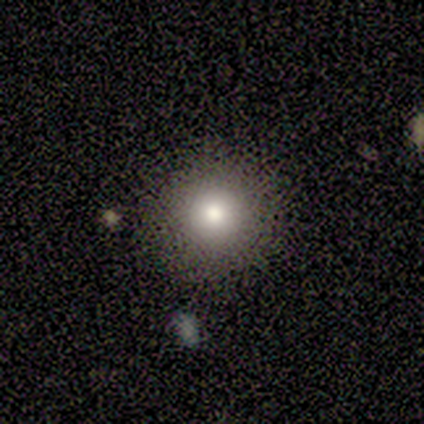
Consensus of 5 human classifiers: A smooth galaxy with no disk features (80%) that is round (100%).

Vote fractions:
- Smooth or featured? smooth: 80% / star or artifact: 20% / featured or disk: 0%
- How rounded? round: 100% / in between: 0% / cigar-shaped: 0%
- Merging? none: 100% / minor disturbance: 0% / major disturbance: 0% / merger: 0%